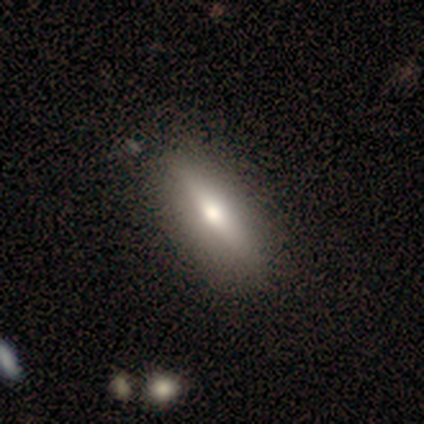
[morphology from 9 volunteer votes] This appears to be a featured or disk galaxy (44%) viewed edge-on (75%) with a rounded central bulge (100%). Merging: none (100%).